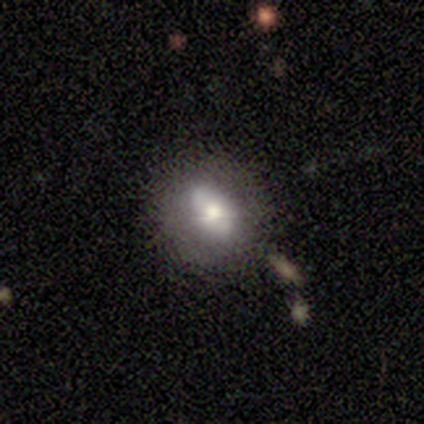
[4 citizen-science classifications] smooth_or_featured: smooth (p=0.50) [tied with: featured or disk p=0.50]
how_rounded: in between (p=1.00)
merging: none (p=0.75) [alt: minor disturbance p=0.25]